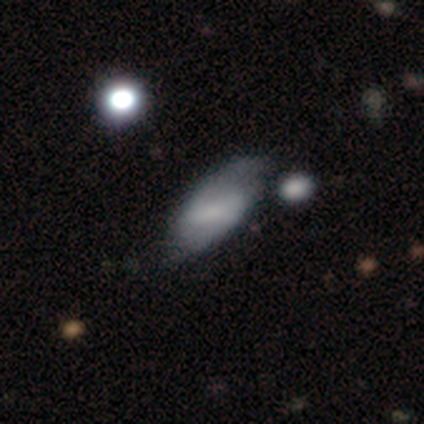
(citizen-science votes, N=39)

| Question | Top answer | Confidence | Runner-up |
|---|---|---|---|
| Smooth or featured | smooth | 49% | featured or disk (38%) |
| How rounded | in between | 100% | — |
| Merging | none | 65% | minor disturbance (24%) |